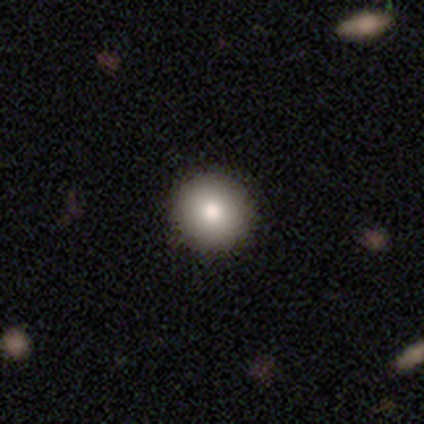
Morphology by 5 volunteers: Smooth or featured? smooth (80%)
How rounded? round (100%)
Merging? none (100%)